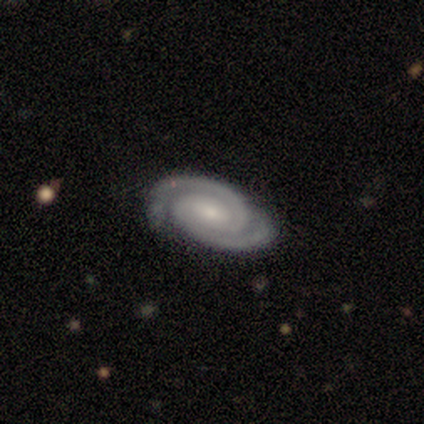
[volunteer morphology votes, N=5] smooth_or_featured: featured or disk (p=1.00)
disk_edge_on: no (p=1.00)
bar: strong (p=0.40) [tied with: weak p=0.40]
has_spiral_arms: yes (p=1.00)
spiral_winding: tight (p=0.60) [alt: medium p=0.40]
spiral_arm_count: 2 (p=1.00)
bulge_size: small (p=0.60) [alt: large p=0.20]
merging: none (p=1.00)